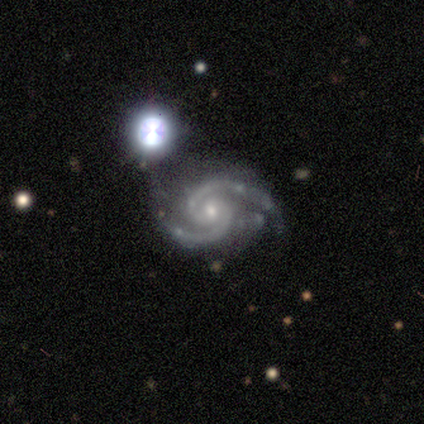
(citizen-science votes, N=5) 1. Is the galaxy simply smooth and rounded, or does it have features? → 100% featured or disk, 0% smooth, 0% star or artifact.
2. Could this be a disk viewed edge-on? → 100% no, 0% yes.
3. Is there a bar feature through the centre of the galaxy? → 80% no, 20% weak, 0% strong.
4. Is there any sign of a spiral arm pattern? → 100% yes, 0% no.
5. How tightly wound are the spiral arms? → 60% medium, 20% tight, 20% loose.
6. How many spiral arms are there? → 100% 2, 0% 1, 0% 3, 0% 4, 0% more than 4, 0% can't tell.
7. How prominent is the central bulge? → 60% moderate, 40% small, 0% dominant, 0% large, 0% none.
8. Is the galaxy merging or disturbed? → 80% none, 20% minor disturbance, 0% major disturbance, 0% merger.